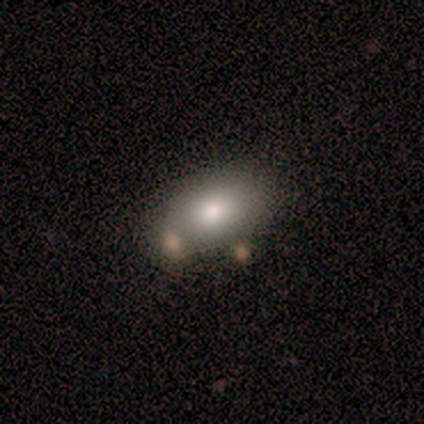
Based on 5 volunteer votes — This is clearly a smooth galaxy (100%). How rounded: clearly in between (100%). Merging: likely none (60%).